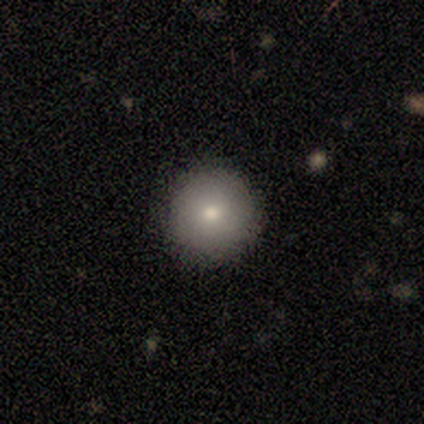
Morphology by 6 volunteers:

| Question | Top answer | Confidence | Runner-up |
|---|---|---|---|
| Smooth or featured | smooth | 83% | star or artifact (17%) |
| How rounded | round | 100% | — |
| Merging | none | 100% | — |